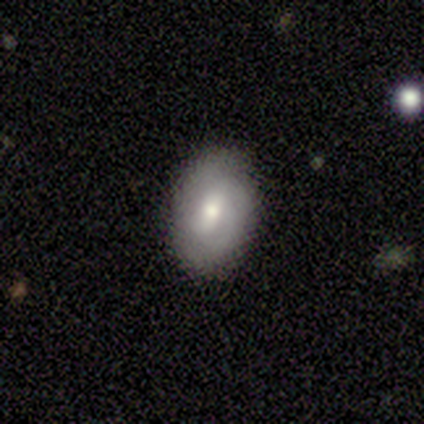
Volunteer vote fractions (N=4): Smooth or featured?
  - smooth: 75% *
  - featured or disk: 25%
  - star or artifact: 0%
How rounded?
  - in between: 100% *
  - round: 0%
  - cigar-shaped: 0%
Merging?
  - none: 100% *
  - minor disturbance: 0%
  - major disturbance: 0%
  - merger: 0%